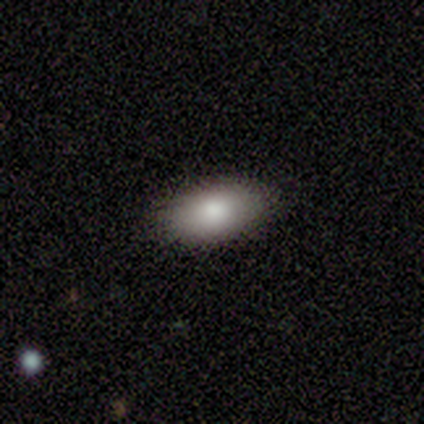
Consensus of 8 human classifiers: Smooth or featured? 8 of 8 (100%) said smooth. How rounded? 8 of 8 (100%) said in between. Merging? 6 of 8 (75%) said none.